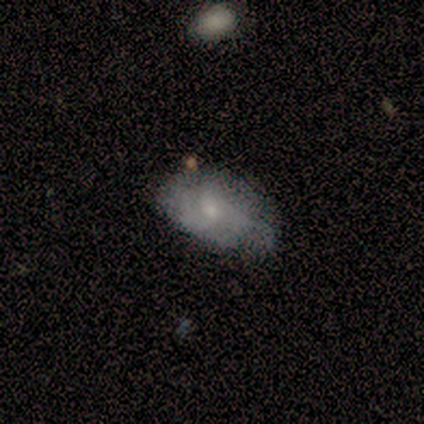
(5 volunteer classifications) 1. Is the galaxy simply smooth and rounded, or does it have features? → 60% featured or disk, 20% smooth, 20% star or artifact.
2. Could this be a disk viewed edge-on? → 67% no, 33% yes.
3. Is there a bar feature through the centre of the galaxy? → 100% no, 0% strong, 0% weak.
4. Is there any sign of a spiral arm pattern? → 50% yes (tied), 50% no (tied).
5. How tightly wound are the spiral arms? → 100% medium, 0% tight, 0% loose.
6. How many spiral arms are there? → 100% can't tell, 0% 1, 0% 2, 0% 3, 0% 4, 0% more than 4.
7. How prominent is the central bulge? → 100% moderate, 0% dominant, 0% large, 0% small, 0% none.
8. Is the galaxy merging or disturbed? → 50% minor disturbance, 25% none, 25% major disturbance, 0% merger.